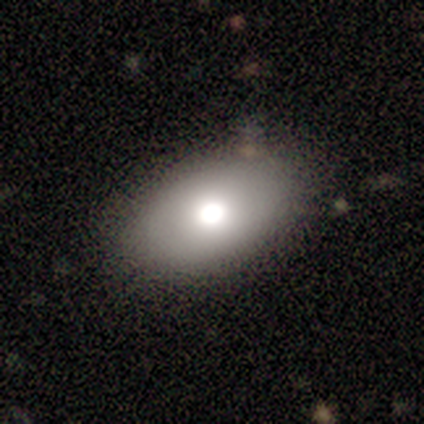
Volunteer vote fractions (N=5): Smooth or featured?
  - smooth: 80% *
  - featured or disk: 20%
  - star or artifact: 0%
How rounded?
  - in between: 75% *
  - round: 25%
  - cigar-shaped: 0%
Merging?
  - none: 60% *
  - minor disturbance: 20%
  - merger: 20%
  - major disturbance: 0%